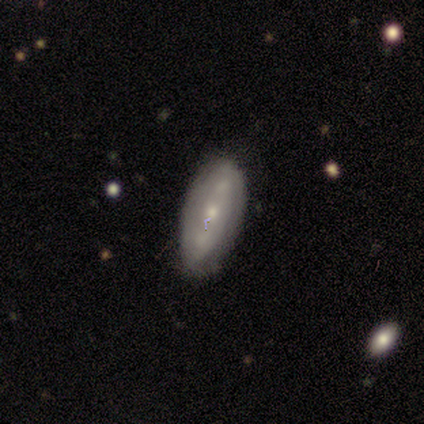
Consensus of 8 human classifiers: smooth 50%, featured or disk 38%, star or artifact 12%. Down the decision tree: how rounded — in between (100%); merging — none (86%).